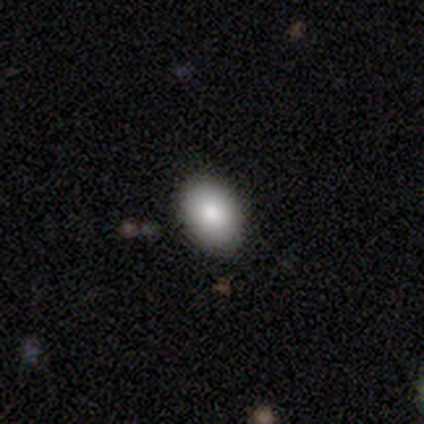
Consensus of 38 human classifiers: This is clearly a smooth galaxy (95%). How rounded: likely in between (78%). Merging: clearly none (81%).